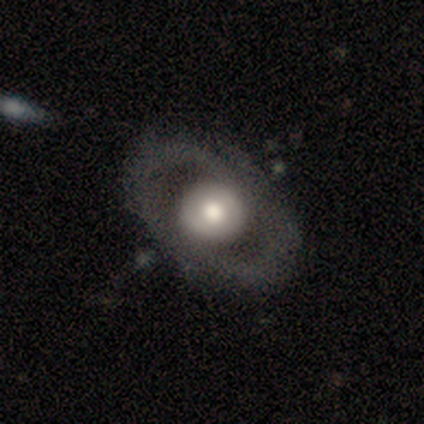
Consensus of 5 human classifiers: Smooth or featured?
  - smooth: 80% *
  - featured or disk: 20%
  - star or artifact: 0%
How rounded?
  - round: 50% * (tied)
  - in between: 50% * (tied)
  - cigar-shaped: 0%
Merging?
  - none: 60% *
  - minor disturbance: 40%
  - major disturbance: 0%
  - merger: 0%